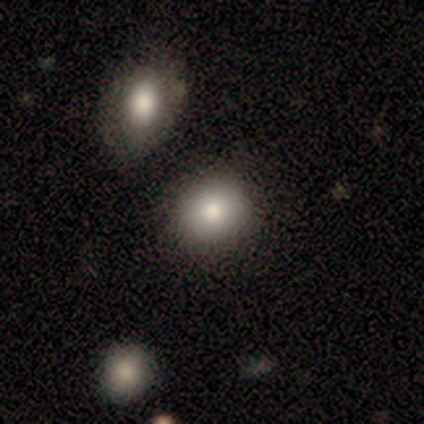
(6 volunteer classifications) Q: Smooth or featured?
A: smooth (83%); runner-up: star or artifact (17%)
Q: How rounded?
A: round (60%); runner-up: in between (40%)
Q: Merging?
A: none (40%); tied with: minor disturbance (40%)